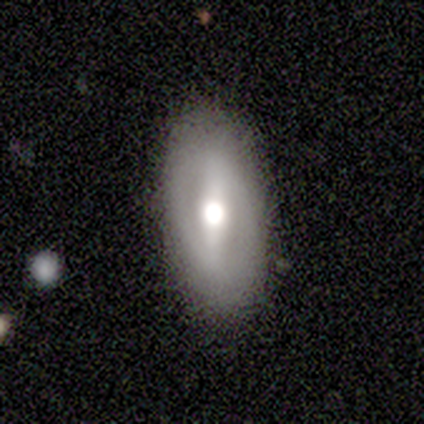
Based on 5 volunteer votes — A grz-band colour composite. It shows a featured or disk galaxy (80%) with a strong bar (50%), no spiral arms (75%) and a moderate central bulge (75%). Merging: none (80%).